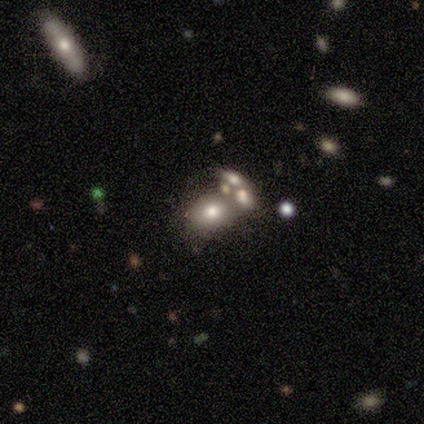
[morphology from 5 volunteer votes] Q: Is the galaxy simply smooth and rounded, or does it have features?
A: smooth — 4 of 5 (80%).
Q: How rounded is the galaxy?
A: in between — 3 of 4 (75%).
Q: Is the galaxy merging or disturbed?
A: none — 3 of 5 (60%).